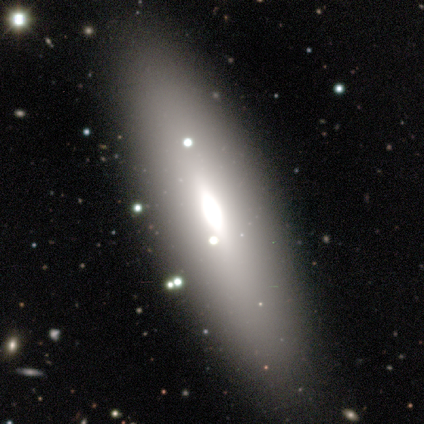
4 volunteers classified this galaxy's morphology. smooth_or_featured: smooth (p=0.75) [alt: featured or disk p=0.25]
how_rounded: in between (p=1.00)
merging: none (p=1.00)